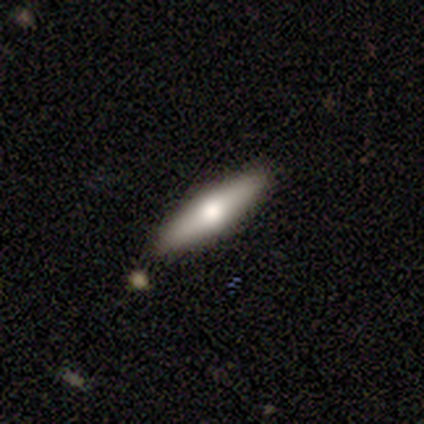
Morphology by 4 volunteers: This is likely a smooth galaxy (75%). How rounded: likely cigar-shaped (67%). Merging: clearly none (100%).